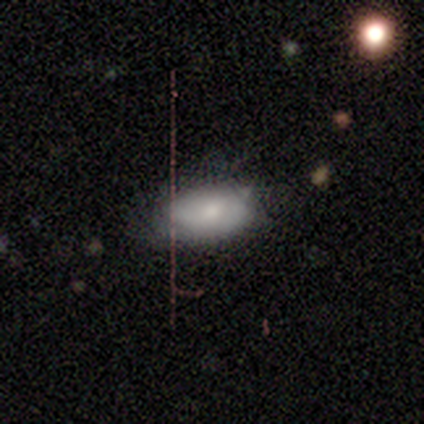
Morphology: type=featured or disk (80%); edge-on=no (100%); bar=weak (50%, tied with no); spiral arms=no (75%); bulge=moderate (75%); merging=none (60%).